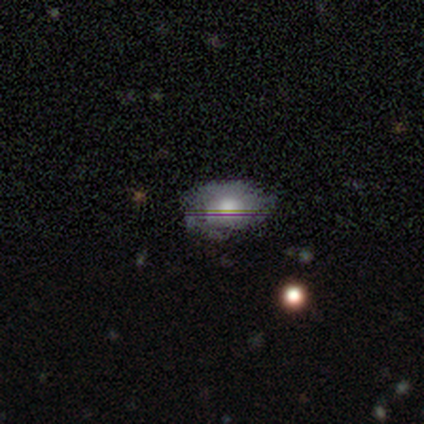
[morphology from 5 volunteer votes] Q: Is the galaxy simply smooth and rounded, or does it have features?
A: featured or disk — 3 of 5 (60%).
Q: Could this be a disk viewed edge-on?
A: no — 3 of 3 (100%).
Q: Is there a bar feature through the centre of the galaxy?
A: no — 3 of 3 (100%).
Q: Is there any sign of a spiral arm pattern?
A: yes — 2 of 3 (67%).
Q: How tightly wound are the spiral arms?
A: loose — 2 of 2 (100%).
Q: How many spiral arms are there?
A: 1 — 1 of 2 (50%, tied with 2).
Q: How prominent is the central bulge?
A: large — 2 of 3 (67%).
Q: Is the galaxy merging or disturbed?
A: none — 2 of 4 (50%, tied with minor disturbance).